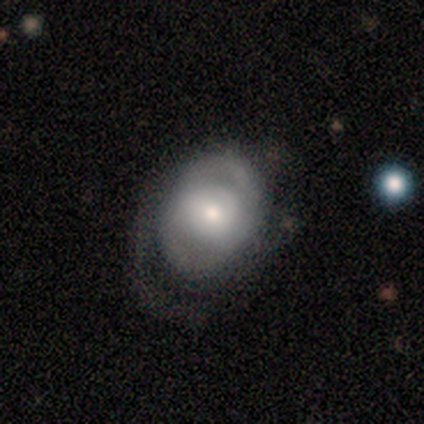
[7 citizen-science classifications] This is possibly a featured or disk galaxy (57%). It is clearly not viewed edge-on (100%). Bar: possibly weak (50%, tied with no). Spiral arm pattern: possibly yes (50%, tied with no). Spiral arm count: possibly 2 (50%, tied with can't tell). Spiral winding: possibly tight (50%, tied with medium). Central bulge: likely moderate (75%). Merging: possibly major disturbance (57%).